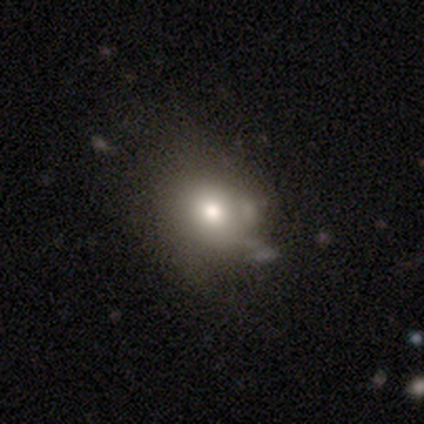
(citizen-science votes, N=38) Smooth or featured?
  - smooth: 71% *
  - featured or disk: 21%
  - star or artifact: 8%
How rounded?
  - round: 67% *
  - in between: 33%
  - cigar-shaped: 0%
Merging?
  - none: 34% *
  - minor disturbance: 31%
  - major disturbance: 31%
  - merger: 3%